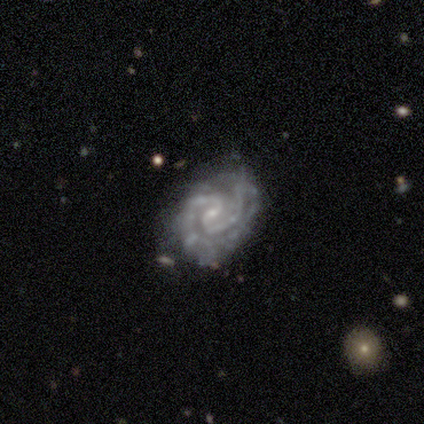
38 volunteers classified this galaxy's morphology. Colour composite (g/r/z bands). It shows a featured or disk galaxy (84%) with no bar (48%), 2 (57%) tight (47%, tied with medium) spiral arms (97%) and a small central bulge (81%). Merging: none (74%).